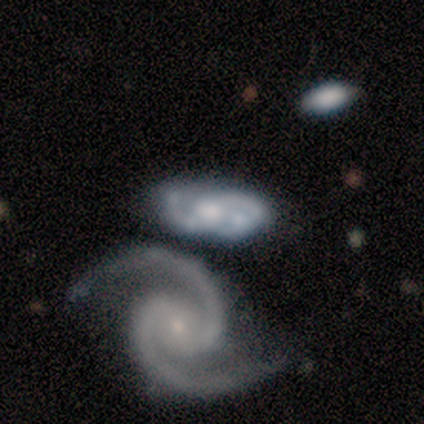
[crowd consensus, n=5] This is clearly a featured or disk galaxy (100%). It is clearly not viewed edge-on (100%). Bar: likely no (60%). Spiral arm pattern: clearly yes (100%). Spiral arm count: clearly 2 (80%). Spiral winding: likely medium (60%). Central bulge: clearly small (80%). Merging: likely merger (60%).